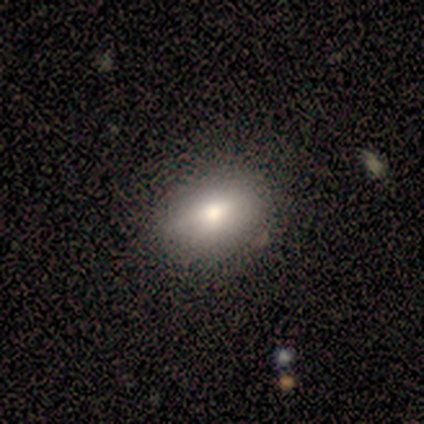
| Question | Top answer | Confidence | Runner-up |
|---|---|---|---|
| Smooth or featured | smooth | 80% | featured or disk (20%) |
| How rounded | in between | 75% | round (25%) |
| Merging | none | 100% | — |